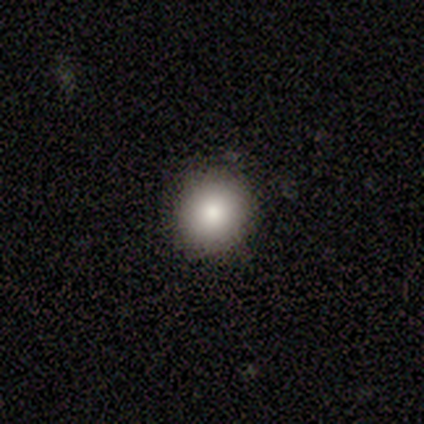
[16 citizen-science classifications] Volunteers were most divided on "smooth or featured": smooth: 81%, star or artifact: 12%, featured or disk: 6%. More confident: merging — none (86%); how rounded — round (85%).